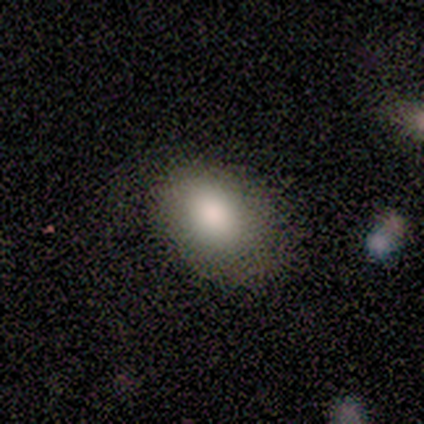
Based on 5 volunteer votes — smooth-or-featured: smooth: 80% | featured or disk: 20% | star or artifact: 0%
  how-rounded: in between: 75% | round: 25% | cigar-shaped: 0%
  merging: none: 60% | minor disturbance: 40% | major disturbance: 0% | merger: 0%